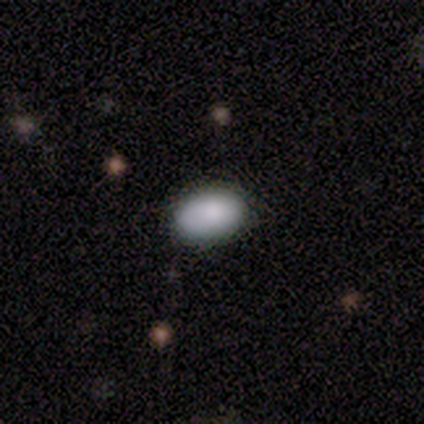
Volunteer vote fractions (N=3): This appears to be a smooth galaxy with no disk features (100%) that is in between round and cigar-shaped (67%). Merging: none (100%).